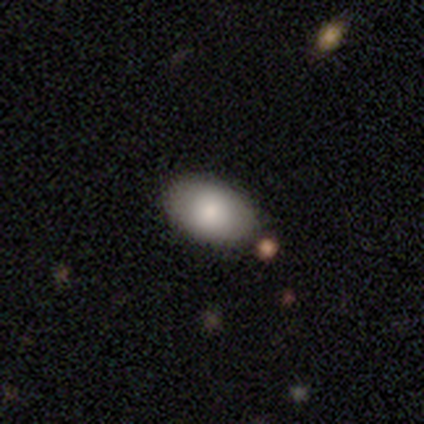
Q: Smooth or featured?
A: smooth (75%); runner-up: star or artifact (25%)
Q: How rounded?
A: round (67%); runner-up: in between (33%)
Q: Merging?
A: none (67%); runner-up: minor disturbance (33%)